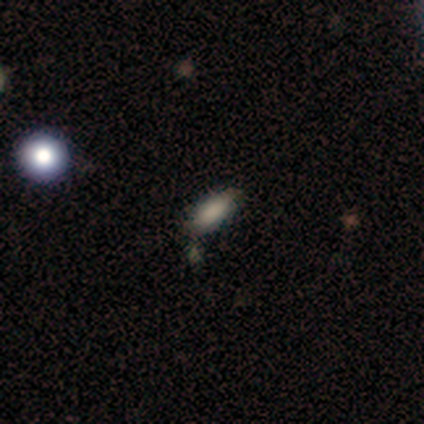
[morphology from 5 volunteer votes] Smooth or featured? 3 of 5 (60%) said smooth. How rounded? 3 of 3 (100%) said in between. Merging? 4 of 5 (80%) said none.